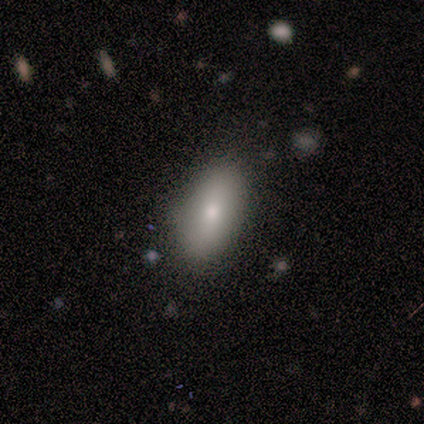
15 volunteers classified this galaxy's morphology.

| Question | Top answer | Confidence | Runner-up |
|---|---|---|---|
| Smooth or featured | smooth | 93% | featured or disk (7%) |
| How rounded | in between | 93% | cigar-shaped (7%) |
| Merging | none | 87% | minor disturbance (7%) |